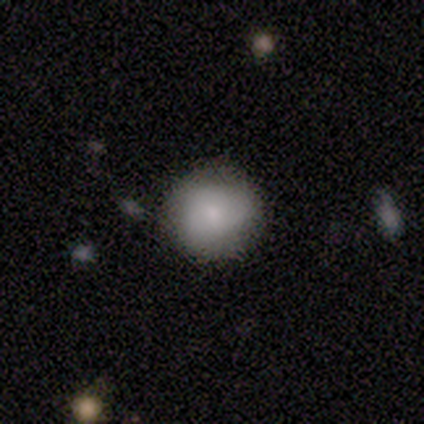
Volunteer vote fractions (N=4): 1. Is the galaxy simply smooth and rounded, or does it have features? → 75% smooth, 25% featured or disk, 0% star or artifact.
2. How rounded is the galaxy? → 100% round, 0% in between, 0% cigar-shaped.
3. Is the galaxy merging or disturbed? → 100% none, 0% minor disturbance, 0% major disturbance, 0% merger.